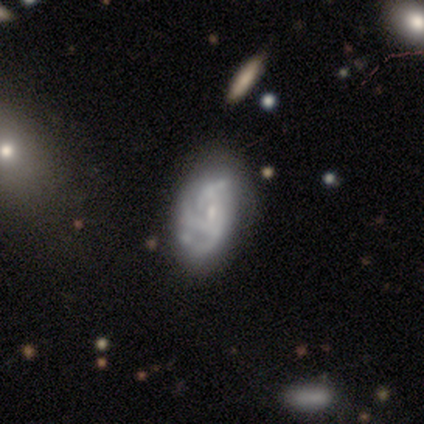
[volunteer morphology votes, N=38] This is likely a featured or disk galaxy (71%). It is clearly not viewed edge-on (96%). Bar: possibly no (54%). Spiral arm pattern: likely yes (73%). Spiral arm count: possibly 3 (53%). Spiral winding: marginally medium (42%). Central bulge: likely small (69%). Merging: possibly none (47%).